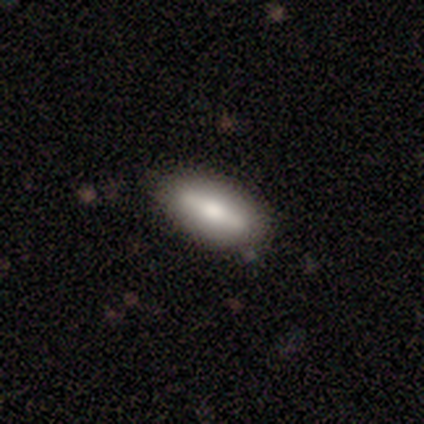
Smooth or featured? smooth (60%)
How rounded? in between (67%)
Merging? none (100%)